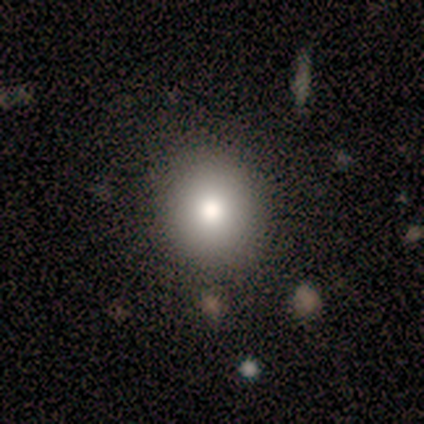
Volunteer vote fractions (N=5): Overall: smooth (60%; star or artifact 40%). How rounded: round (100%). Merging: none (100%).